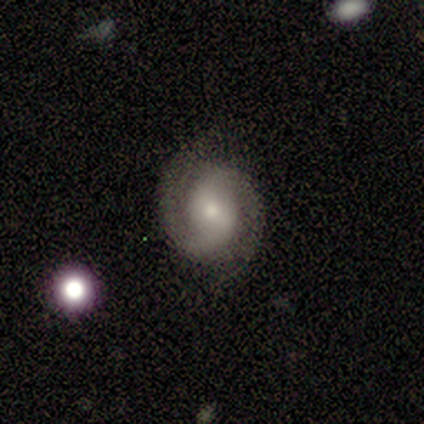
A featured or disk galaxy (100%) with no bar (100%), 2 (100%) tight (60%) spiral arms (100%) and a small central bulge (60%).

Vote fractions:
- Smooth or featured? featured or disk: 100% / smooth: 0% / star or artifact: 0%
- Edge-on disk? no: 100% / yes: 0%
- Bar? no: 100% / strong: 0% / weak: 0%
- Spiral arms? yes: 100% / no: 0%
- Spiral winding? tight: 60% / medium: 20% / loose: 20%
- Spiral arm count? 2: 100% / 1: 0% / 3: 0% / 4: 0% / more than 4: 0% / can't tell: 0%
- Bulge size? small: 60% / moderate: 40% / dominant: 0% / large: 0% / none: 0%
- Merging? none: 80% / minor disturbance: 20% / major disturbance: 0% / merger: 0%